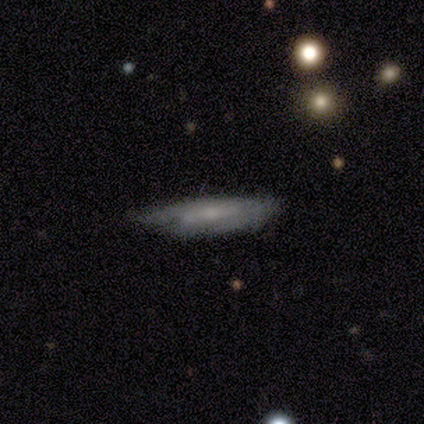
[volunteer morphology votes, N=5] Q: Smooth or featured?
A: featured or disk (60%); runner-up: smooth (20%)
Q: Edge-on disk?
A: yes (67%); runner-up: no (33%)
Q: Edge-on bulge?
A: boxy (50%); tied with: rounded (50%)
Q: Merging?
A: none (100%)